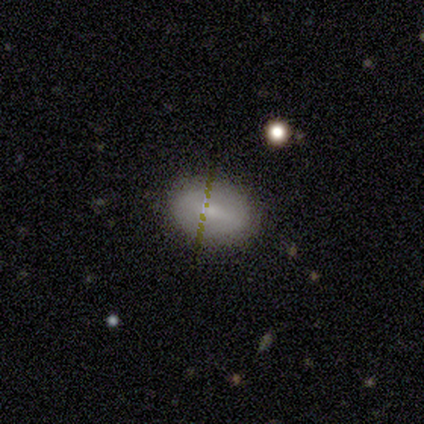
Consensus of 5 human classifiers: Smooth or featured?
  - featured or disk: 80% *
  - smooth: 20%
  - star or artifact: 0%
Edge-on disk?
  - no: 75% *
  - yes: 25%
Bar?
  - no: 67% *
  - strong: 33%
  - weak: 0%
Spiral arms?
  - no: 100% *
  - yes: 0%
Bulge size?
  - small: 67% *
  - moderate: 33%
  - dominant: 0%
  - large: 0%
  - none: 0%
Merging?
  - none: 100% *
  - minor disturbance: 0%
  - major disturbance: 0%
  - merger: 0%